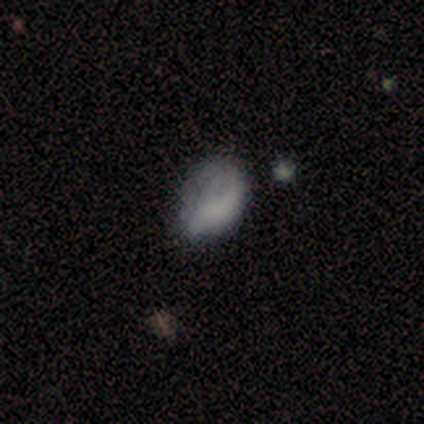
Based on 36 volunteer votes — Smooth or featured?
  - smooth: 72% *
  - featured or disk: 19%
  - star or artifact: 8%
How rounded?
  - in between: 88% *
  - round: 12%
  - cigar-shaped: 0%
Merging?
  - none: 39% * (tied)
  - minor disturbance: 39% * (tied)
  - major disturbance: 18%
  - merger: 3%